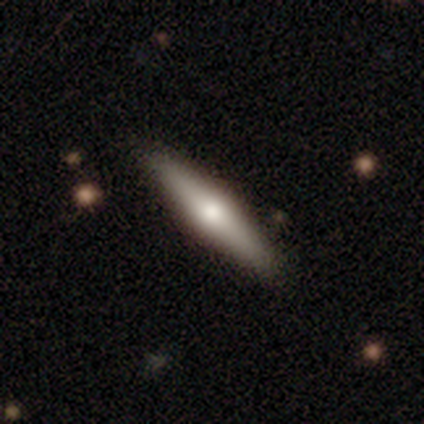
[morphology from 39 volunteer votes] A smooth galaxy with no disk features (51%) that is cigar-shaped (80%).

Vote fractions:
- Smooth or featured? smooth: 51% / featured or disk: 49% / star or artifact: 0%
- How rounded? cigar-shaped: 80% / in between: 20% / round: 0%
- Merging? none: 62% / merger: 5% / minor disturbance: 0% / major disturbance: 0%